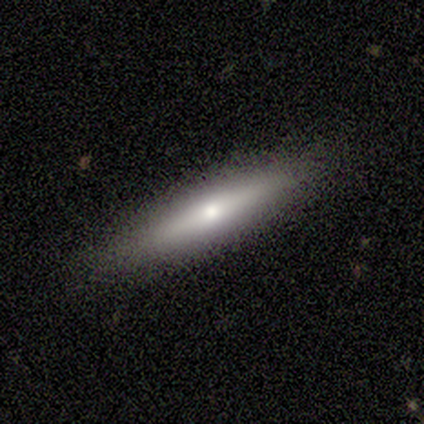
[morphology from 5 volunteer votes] type=featured or disk (60%); edge-on=yes (100%); edge-on bulge=rounded (100%); merging=none (100%).